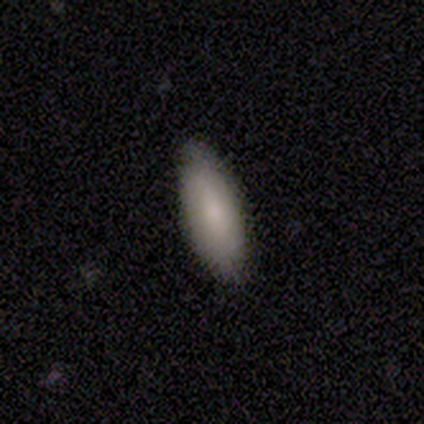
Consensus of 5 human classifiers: Volunteers were most divided on "how rounded": in between: 67%, cigar-shaped: 33%, round: 0%. More confident: merging — none (100%); smooth or featured — smooth (60%).